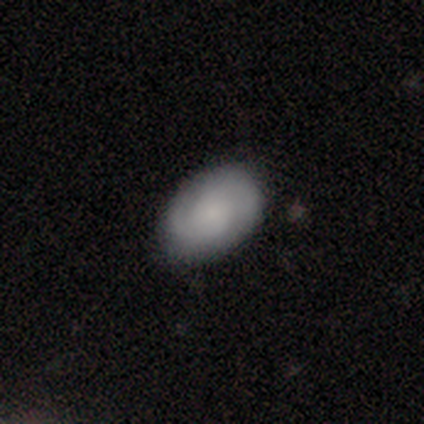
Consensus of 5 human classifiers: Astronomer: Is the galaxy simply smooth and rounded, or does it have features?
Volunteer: smooth — 60% (runner-up: featured or disk, 40%).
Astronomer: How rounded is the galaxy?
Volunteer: in between — 100%.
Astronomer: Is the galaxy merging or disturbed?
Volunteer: none — 100%.